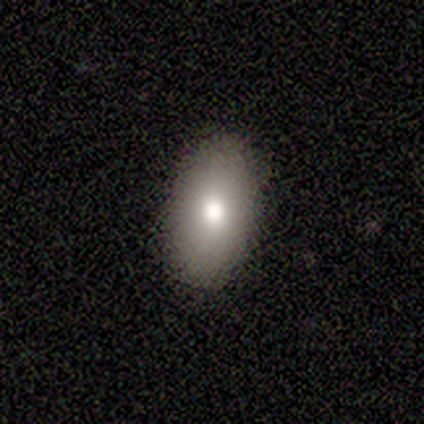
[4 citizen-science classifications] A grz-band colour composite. It shows a smooth galaxy with no disk features (75%) that is in between round and cigar-shaped (100%). Merging: none (100%).